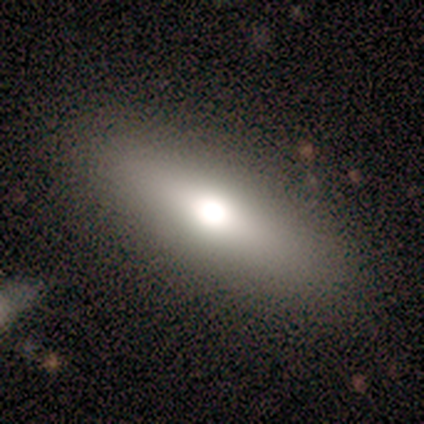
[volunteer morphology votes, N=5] Overall: smooth (80%). How rounded: cigar-shaped (50%; round 25%). Merging: none (80%).